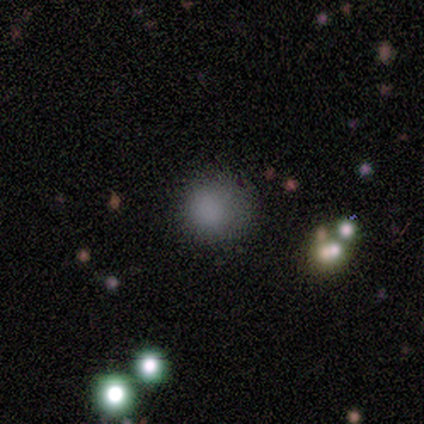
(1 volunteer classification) This appears to be a smooth galaxy with no disk features (100%) that is round (100%). Merging: none (100%).